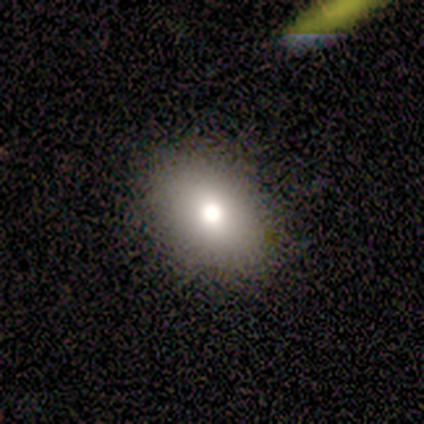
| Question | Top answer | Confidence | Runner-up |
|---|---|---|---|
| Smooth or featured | smooth | 75% | featured or disk (25%) |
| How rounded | in between | 67% | round (33%) |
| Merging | none | 75% | minor disturbance (25%) |